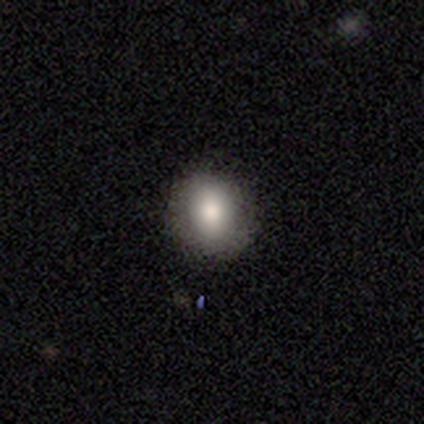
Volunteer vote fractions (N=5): Overall: smooth (80%). How rounded: in between (75%). Merging: none (100%).